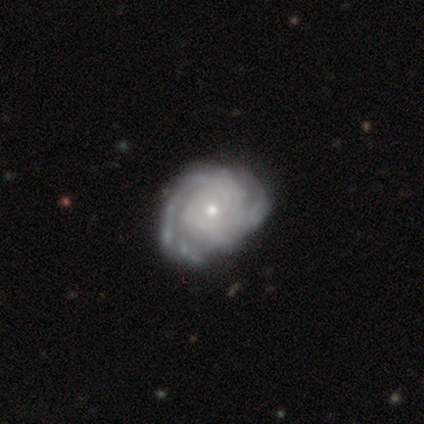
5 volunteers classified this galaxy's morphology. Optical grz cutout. It shows a featured or disk galaxy (100%) with no bar (80%), 2 (40%, tied with can't tell) tight (60%) spiral arms (100%) and a moderate central bulge (40%, tied with small). Merging: none (60%).